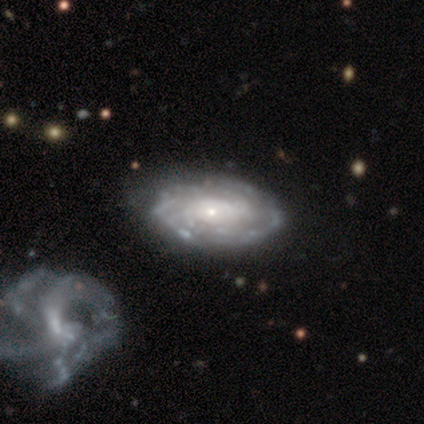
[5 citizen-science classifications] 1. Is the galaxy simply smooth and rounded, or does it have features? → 80% featured or disk, 20% smooth, 0% star or artifact.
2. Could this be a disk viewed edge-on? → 100% no, 0% yes.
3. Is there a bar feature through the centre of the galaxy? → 100% no, 0% strong, 0% weak.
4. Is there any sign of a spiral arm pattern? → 75% yes, 25% no.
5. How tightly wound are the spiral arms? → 67% tight, 33% loose, 0% medium.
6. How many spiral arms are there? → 67% more than 4, 33% 4, 0% 1, 0% 2, 0% 3, 0% can't tell.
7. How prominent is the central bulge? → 50% small, 25% dominant, 25% moderate, 0% large, 0% none.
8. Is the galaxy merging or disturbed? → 60% minor disturbance, 40% none, 0% major disturbance, 0% merger.